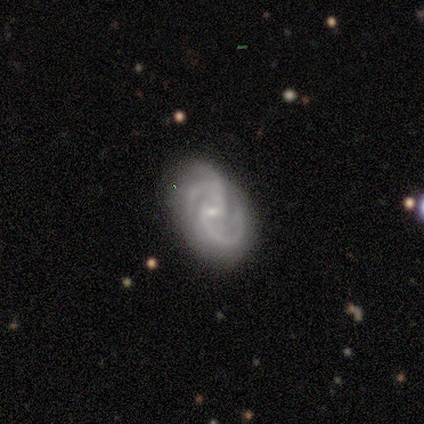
Overall: featured or disk (100%). Edge-on disk: no (100%). Bar: weak (40%, tied with no). Spiral arms: yes (100%). Spiral arm count: 3 (60%; 2 40%). Spiral winding: medium (80%). Bulge size: small (80%). Merging: none (60%; minor disturbance 40%).